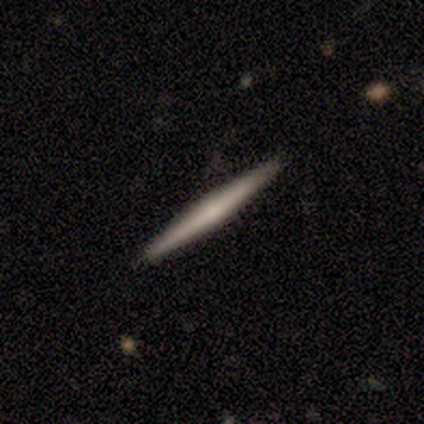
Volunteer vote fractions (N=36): A featured or disk galaxy (53%) viewed edge-on (95%) with a rounded central bulge (56%). Merging: none (91%).